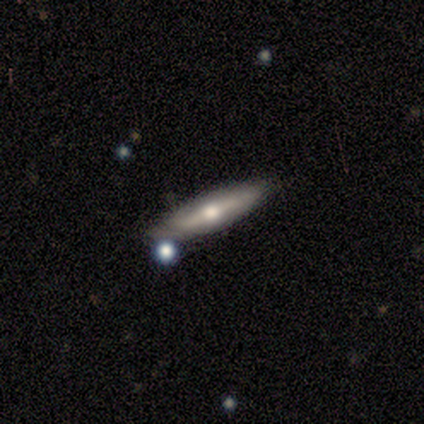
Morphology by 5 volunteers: Smooth or featured? smooth (60%)
How rounded? cigar-shaped (100%)
Merging? none (80%)